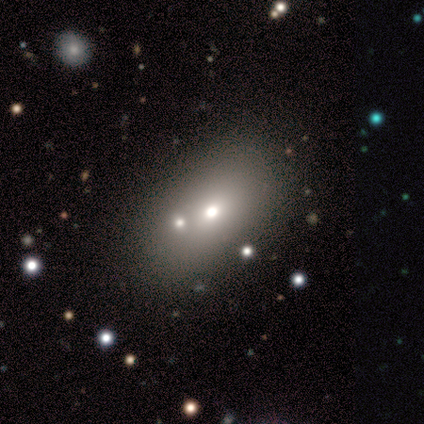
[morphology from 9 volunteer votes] Smooth or featured?
  - smooth: 56% *
  - star or artifact: 44%
  - featured or disk: 0%
How rounded?
  - in between: 100% *
  - round: 0%
  - cigar-shaped: 0%
Merging?
  - none: 100% *
  - minor disturbance: 0%
  - major disturbance: 0%
  - merger: 0%